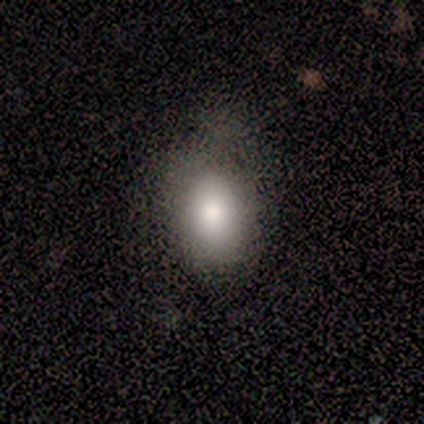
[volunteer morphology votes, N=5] Q: Smooth or featured?
A: smooth (100%)
Q: How rounded?
A: in between (60%); runner-up: round (20%)
Q: Merging?
A: none (80%); runner-up: minor disturbance (20%)